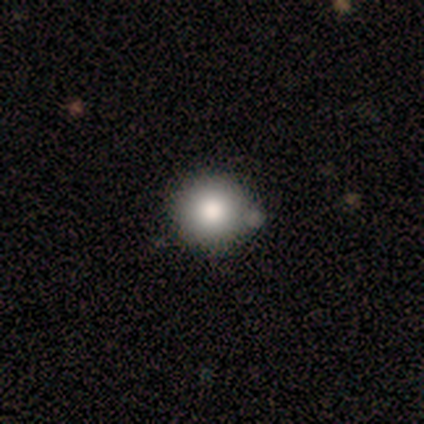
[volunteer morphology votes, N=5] Smooth or featured?
  - smooth: 80% *
  - featured or disk: 20%
  - star or artifact: 0%
How rounded?
  - round: 100% *
  - in between: 0%
  - cigar-shaped: 0%
Merging?
  - minor disturbance: 80% *
  - none: 20%
  - major disturbance: 0%
  - merger: 0%